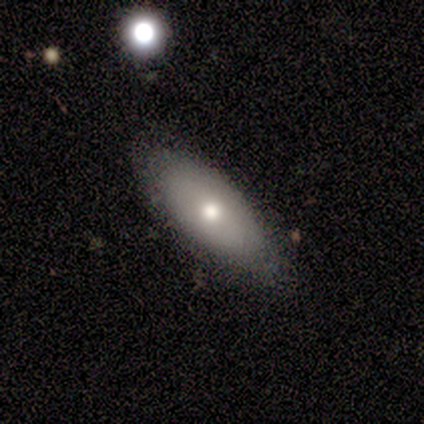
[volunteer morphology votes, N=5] Smooth or featured?
  - smooth: 60% *
  - featured or disk: 40%
  - star or artifact: 0%
How rounded?
  - in between: 67% *
  - cigar-shaped: 33%
  - round: 0%
Merging?
  - none: 60% *
  - minor disturbance: 40%
  - major disturbance: 0%
  - merger: 0%